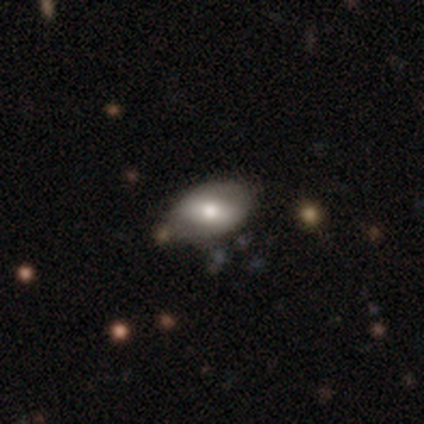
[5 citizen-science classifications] Morphology: type=smooth (80%); roundness=in between (100%); merging=none (60%).